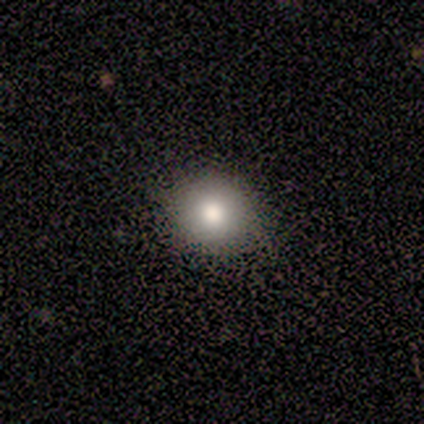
smooth 100%, featured or disk 0%, star or artifact 0%. Down the decision tree: how rounded — round (80%); merging — none (100%).